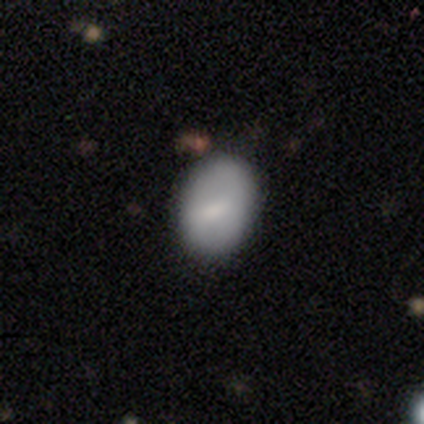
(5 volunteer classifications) This is likely a smooth galaxy (60%). How rounded: likely in between (67%). Merging: clearly none (80%).